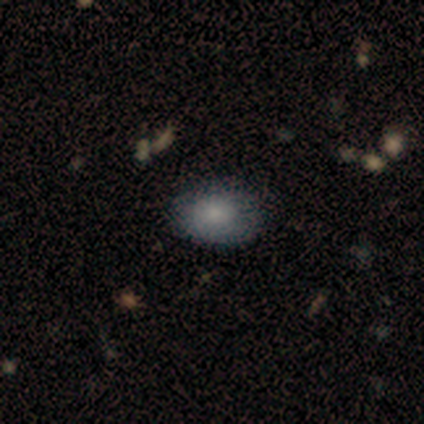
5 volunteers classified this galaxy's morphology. smooth-or-featured: smooth: 60% | featured or disk: 40% | star or artifact: 0%
  how-rounded: in between: 100% | round: 0% | cigar-shaped: 0%
  merging: none: 80% | minor disturbance: 20% | major disturbance: 0% | merger: 0%